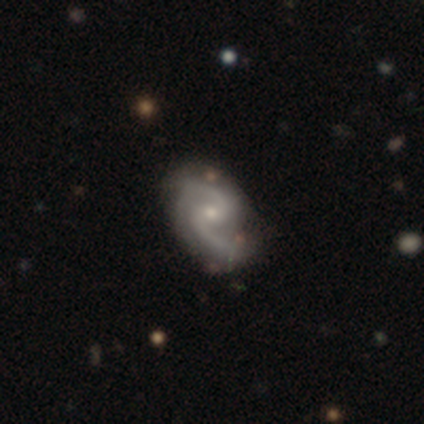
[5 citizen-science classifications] A featured or disk galaxy (100%) with a weak bar (60%), 2 (100%) medium (80%) spiral arms (100%) and a small central bulge (80%).

Vote fractions:
- Smooth or featured? featured or disk: 100% / smooth: 0% / star or artifact: 0%
- Edge-on disk? no: 100% / yes: 0%
- Bar? weak: 60% / no: 40% / strong: 0%
- Spiral arms? yes: 100% / no: 0%
- Spiral winding? medium: 80% / loose: 20% / tight: 0%
- Spiral arm count? 2: 100% / 1: 0% / 3: 0% / 4: 0% / more than 4: 0% / can't tell: 0%
- Bulge size? small: 80% / moderate: 20% / dominant: 0% / large: 0% / none: 0%
- Merging? minor disturbance: 60% / none: 40% / major disturbance: 0% / merger: 0%